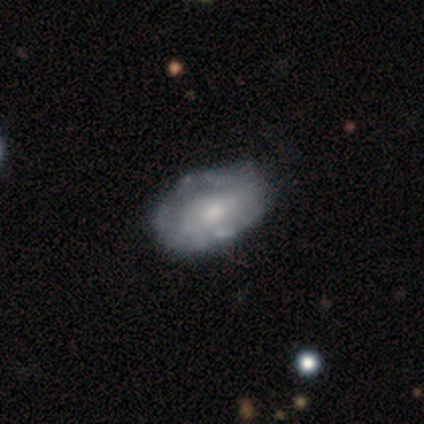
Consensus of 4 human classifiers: Morphology: type=smooth (75%); roundness=in between (100%); merging=none (75%).